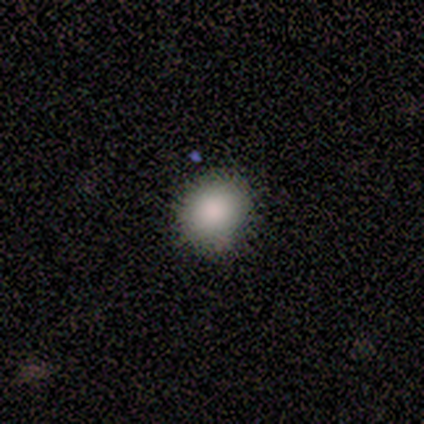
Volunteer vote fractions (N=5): A smooth galaxy with no disk features (100%) that is round (80%). Merging: none (80%).